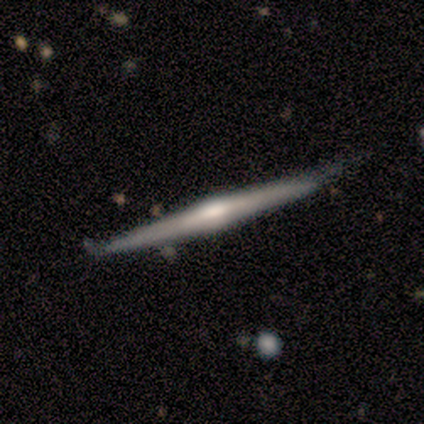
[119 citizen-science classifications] Smooth or featured?
  - featured or disk: 76% *
  - smooth: 18%
  - star or artifact: 7%
Edge-on disk?
  - yes: 99% *
  - no: 1%
Edge-on bulge?
  - rounded: 71% *
  - boxy: 19%
  - none: 10%
Merging?
  - none: 69% *
  - minor disturbance: 26%
  - merger: 4%
  - major disturbance: 1%